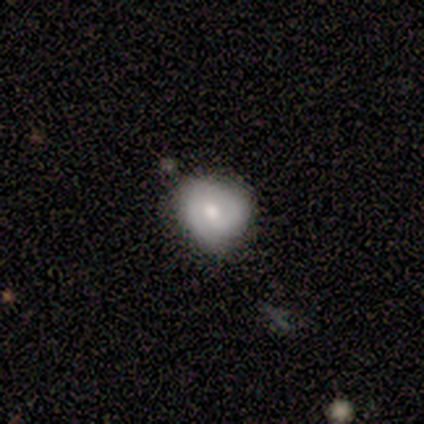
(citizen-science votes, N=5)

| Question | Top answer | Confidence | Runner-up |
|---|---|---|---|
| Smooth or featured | smooth | 60% | featured or disk (40%) |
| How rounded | round | 67% | in between (33%) |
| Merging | minor disturbance | 60% | none (40%) |